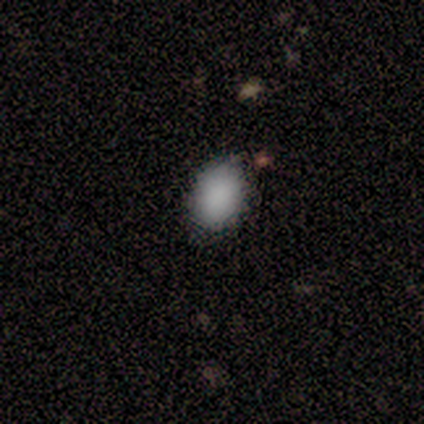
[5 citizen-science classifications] Overall: smooth (100%). How rounded: in between (60%; round 20%). Merging: none (100%).